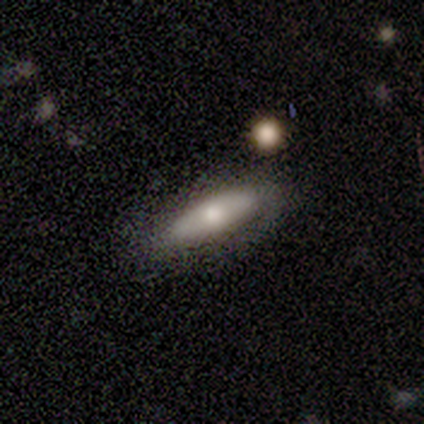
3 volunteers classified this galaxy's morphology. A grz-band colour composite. It shows a smooth galaxy with no disk features (100%) that is in between round and cigar-shaped (67%). Merging: none (100%).